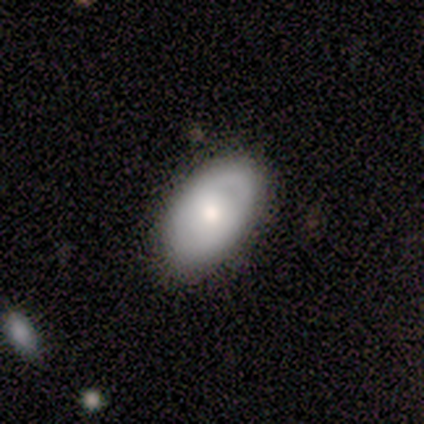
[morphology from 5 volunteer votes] This is likely a smooth galaxy (60%). How rounded: clearly in between (100%). Merging: clearly none (100%).